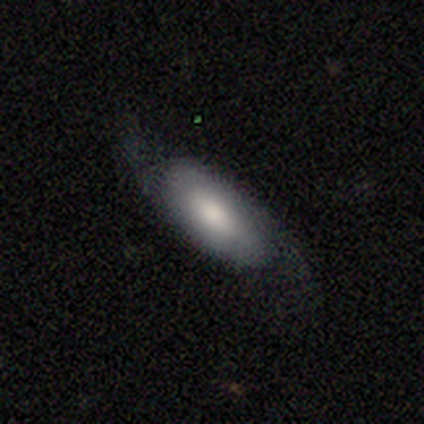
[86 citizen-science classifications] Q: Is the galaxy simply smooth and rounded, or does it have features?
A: smooth — 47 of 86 (55%).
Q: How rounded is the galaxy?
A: in between — 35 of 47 (74%).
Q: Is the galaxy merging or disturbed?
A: none — 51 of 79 (65%).